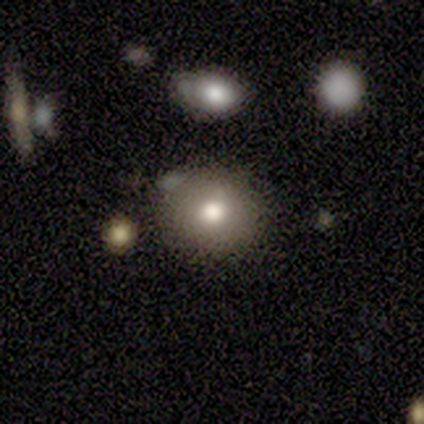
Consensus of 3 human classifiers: Volunteers were most divided on "smooth or featured" (3-way tie): smooth: 33%, featured or disk: 33%, star or artifact: 33%. More confident: how rounded — round (100%); merging — none (100%).